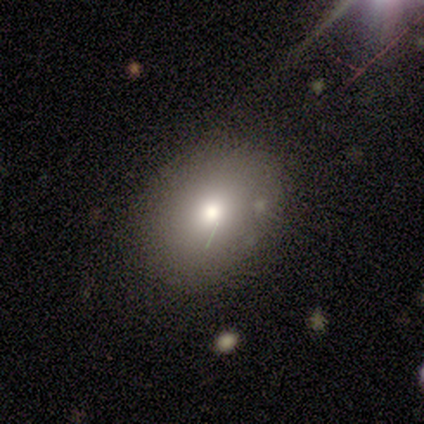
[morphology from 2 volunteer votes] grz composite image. It shows a smooth galaxy with no disk features (50%, tied with featured or disk) that is in between round and cigar-shaped (100%). Merging: none (100%).